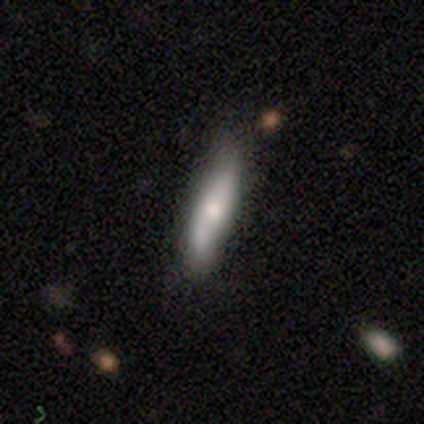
Smooth or featured? 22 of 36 (61%) said smooth. How rounded? 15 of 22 (68%) said cigar-shaped. Merging? 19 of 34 (56%) said none.